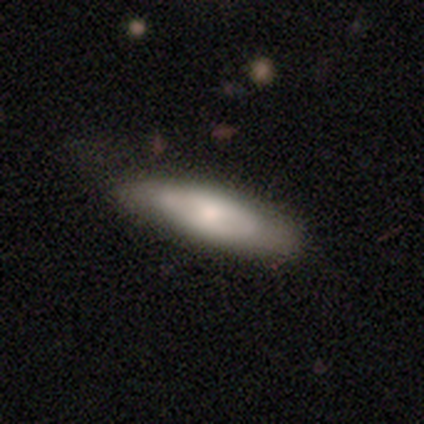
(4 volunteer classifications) Smooth or featured? featured or disk (100%)
Edge-on disk? no (75%)
Bar? no (67%)
Spiral arms? no (67%)
Bulge size? small (67%)
Merging? none (75%)